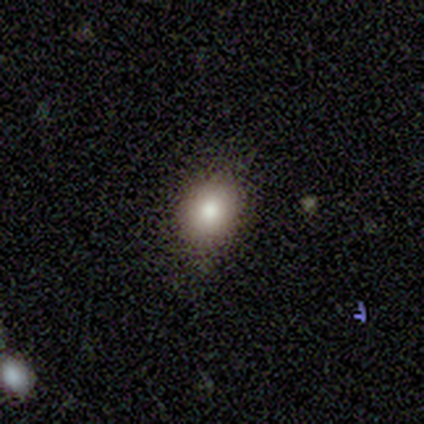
This is clearly a smooth galaxy (86%). How rounded: likely round (67%). Merging: likely none (69%).